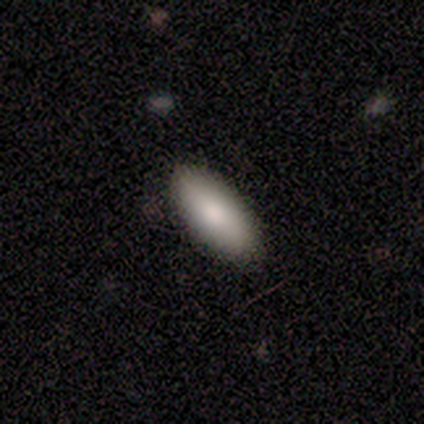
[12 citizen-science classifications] Smooth or featured? smooth (100%)
How rounded? in between (83%)
Merging? none (83%)